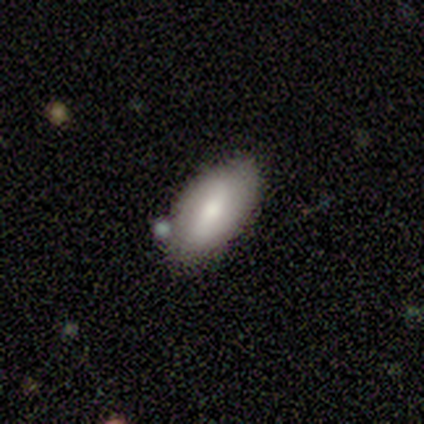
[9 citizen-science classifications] Morphology: type=smooth (56%); roundness=in between (100%); merging=none (33%, tied with minor disturbance).